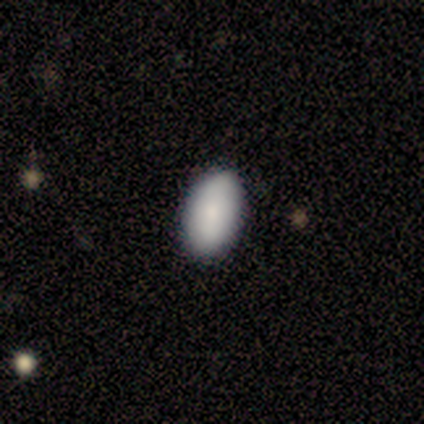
This is clearly a smooth galaxy (88%). How rounded: clearly in between (100%). Merging: clearly none (100%).